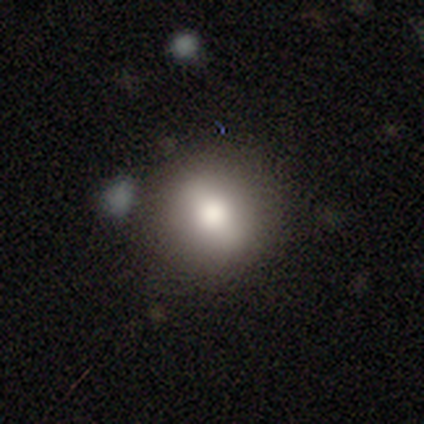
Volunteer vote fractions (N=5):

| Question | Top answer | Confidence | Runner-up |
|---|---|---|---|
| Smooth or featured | smooth | 80% | featured or disk (20%) |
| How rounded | round | 75% | in between (25%) |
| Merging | none | 80% | minor disturbance (20%) |